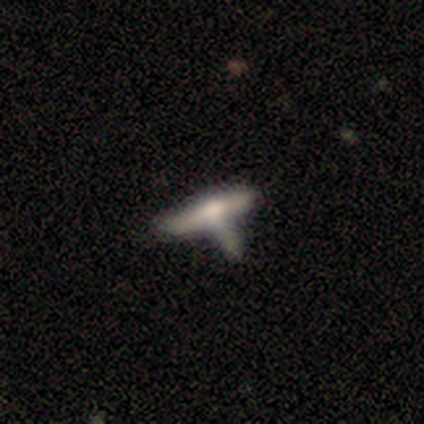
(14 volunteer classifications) Smooth or featured? smooth (71%)
How rounded? cigar-shaped (70%)
Merging? none (38%)